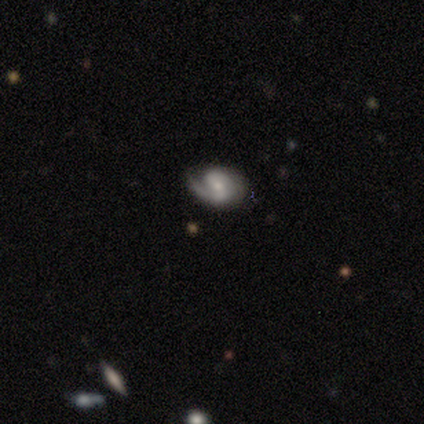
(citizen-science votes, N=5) Smooth or featured?
  - featured or disk: 60% *
  - smooth: 20%
  - star or artifact: 20%
Edge-on disk?
  - no: 100% *
  - yes: 0%
Bar?
  - strong: 67% *
  - weak: 33%
  - no: 0%
Spiral arms?
  - yes: 100% *
  - no: 0%
Spiral winding?
  - medium: 100% *
  - tight: 0%
  - loose: 0%
Spiral arm count?
  - 2: 100% *
  - 1: 0%
  - 3: 0%
  - 4: 0%
  - more than 4: 0%
  - can't tell: 0%
Bulge size?
  - moderate: 67% *
  - small: 33%
  - dominant: 0%
  - large: 0%
  - none: 0%
Merging?
  - minor disturbance: 75% *
  - none: 25%
  - major disturbance: 0%
  - merger: 0%